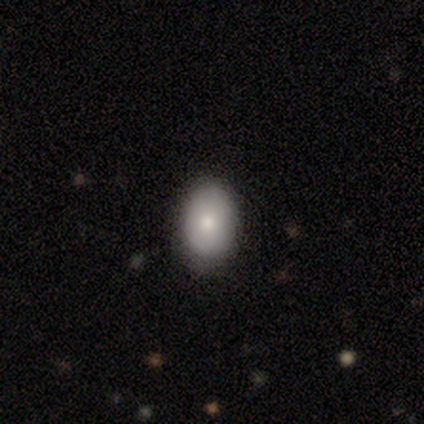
Smooth or featured?
  - smooth: 100% *
  - featured or disk: 0%
  - star or artifact: 0%
How rounded?
  - in between: 100% *
  - round: 0%
  - cigar-shaped: 0%
Merging?
  - none: 80% *
  - major disturbance: 20%
  - minor disturbance: 0%
  - merger: 0%